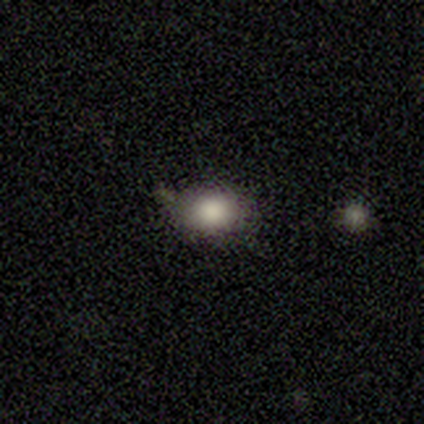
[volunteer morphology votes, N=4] A smooth galaxy with no disk features (100%) that is round (75%). Merging: none (100%).